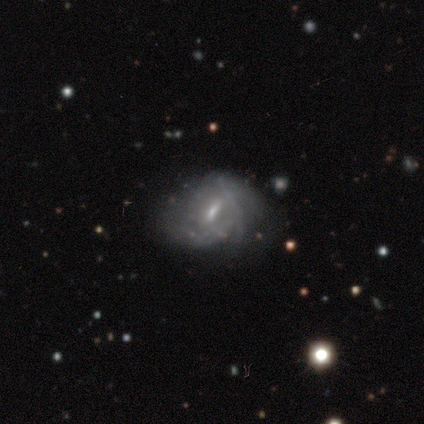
This is clearly a featured or disk galaxy (81%). It is clearly not viewed edge-on (89%). Bar: likely weak (71%). Spiral arm pattern: likely yes (71%). Spiral arm count: possibly can't tell (57%). Spiral winding: possibly tight (52%). Central bulge: possibly small (54%). Merging: marginally none (28%).